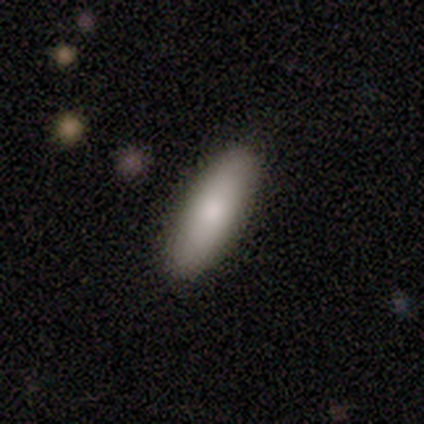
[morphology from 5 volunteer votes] Q: Smooth or featured?
A: smooth (80%); runner-up: featured or disk (20%)
Q: How rounded?
A: in between (75%); runner-up: cigar-shaped (25%)
Q: Merging?
A: none (100%)